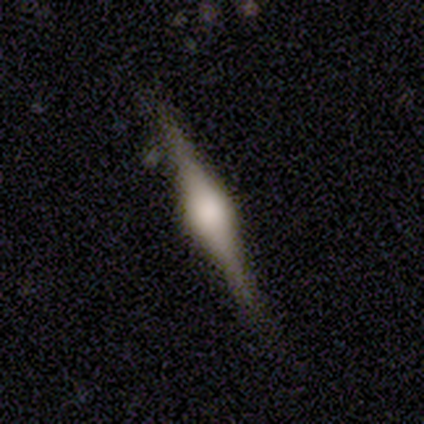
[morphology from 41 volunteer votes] featured or disk 76%, smooth 20%, star or artifact 5%. Down the decision tree: edge-on disk — yes (100%); edge-on bulge — rounded (94%); merging — none (85%).